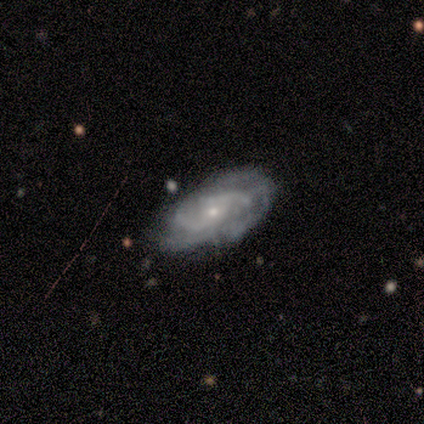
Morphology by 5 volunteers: Smooth or featured? 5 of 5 (100%) said featured or disk. Edge-on disk? 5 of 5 (100%) said no. Bar? 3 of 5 (60%) said weak. Spiral arms? 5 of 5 (100%) said yes. Spiral winding? 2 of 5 (40%, tied with loose) said tight. Spiral arm count? 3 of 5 (60%) said can't tell. Bulge size? 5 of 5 (100%) said small. Merging? 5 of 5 (100%) said none.